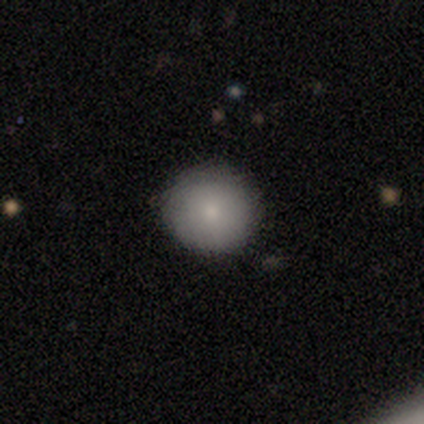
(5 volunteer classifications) Consensus on every question: smooth or featured — smooth (100%); how rounded — round (100%); merging — none (100%).